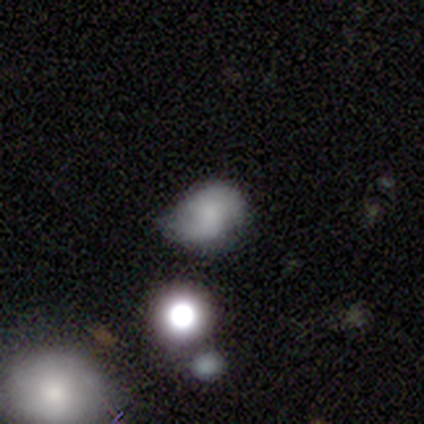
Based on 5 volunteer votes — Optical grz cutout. It shows a smooth galaxy with no disk features (60%) that is in between round and cigar-shaped (67%). Merging: minor disturbance (67%).